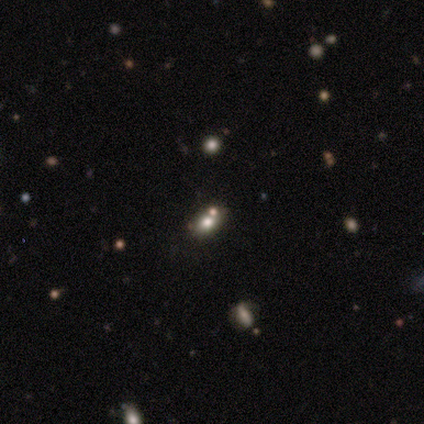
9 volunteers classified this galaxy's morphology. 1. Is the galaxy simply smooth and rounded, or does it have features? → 78% smooth, 22% star or artifact, 0% featured or disk.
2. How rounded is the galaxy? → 57% round, 43% in between, 0% cigar-shaped.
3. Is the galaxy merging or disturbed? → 71% none, 29% merger, 0% minor disturbance, 0% major disturbance.